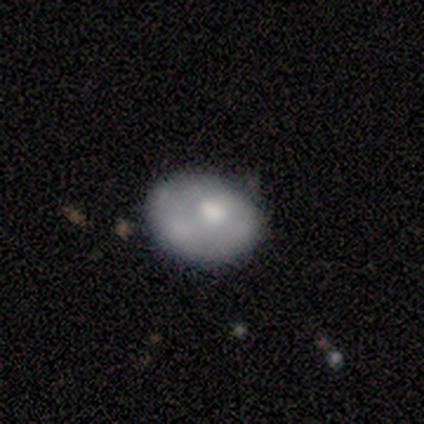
Overall: smooth (100%). How rounded: in between (67%; round 33%). Merging: none (67%; minor disturbance 33%).